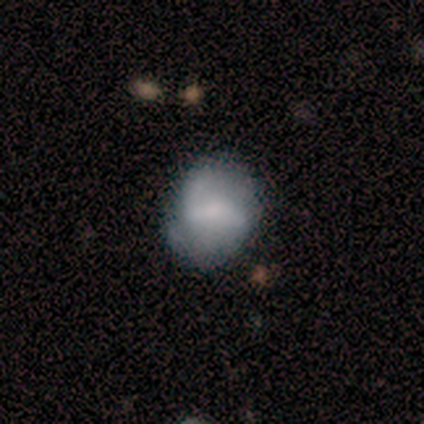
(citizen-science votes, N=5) smooth-or-featured: smooth: 60% | featured or disk: 40% | star or artifact: 0%
  how-rounded: in between: 67% | round: 33% | cigar-shaped: 0%
  merging: none: 60% | minor disturbance: 40% | major disturbance: 0% | merger: 0%